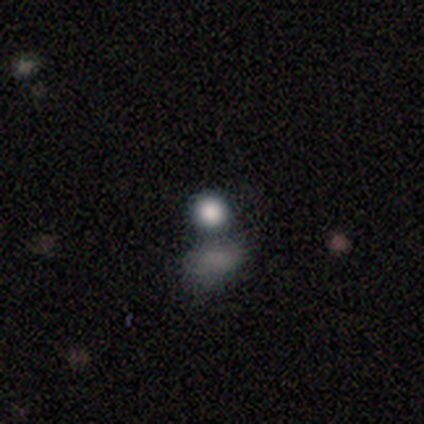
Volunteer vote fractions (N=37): This appears to be a smooth galaxy with no disk features (68%) that is round (100%). Merging: none (57%).